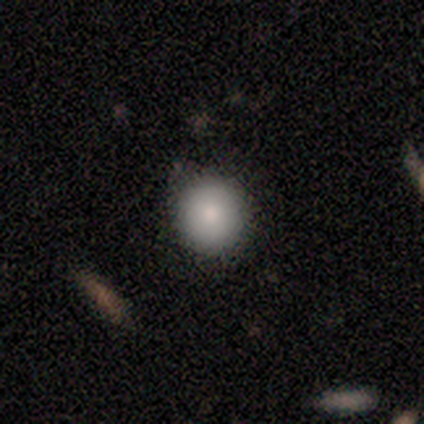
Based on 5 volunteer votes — smooth_or_featured: smooth (p=1.00)
how_rounded: round (p=1.00)
merging: none (p=0.80) [alt: minor disturbance p=0.20]